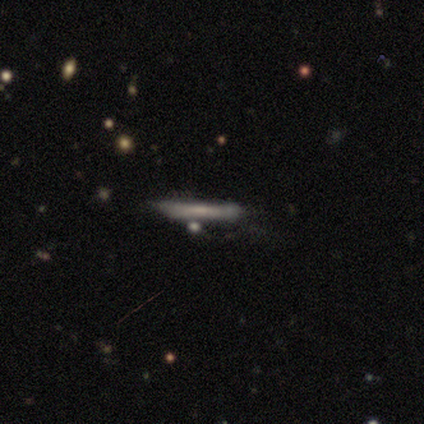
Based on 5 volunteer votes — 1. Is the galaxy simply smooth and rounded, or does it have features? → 60% smooth, 20% featured or disk, 20% star or artifact.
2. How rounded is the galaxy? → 100% cigar-shaped, 0% round, 0% in between.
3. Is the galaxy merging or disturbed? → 50% none (tied), 50% merger (tied), 0% minor disturbance, 0% major disturbance.